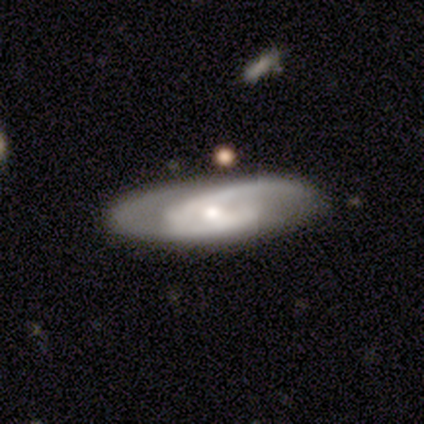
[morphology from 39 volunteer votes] smooth_or_featured: featured or disk (p=0.90) [alt: smooth p=0.08]
disk_edge_on: no (p=0.94) [alt: yes p=0.06]
bar: weak (p=0.52) [alt: no p=0.45]
has_spiral_arms: yes (p=0.97) [alt: no p=0.03]
spiral_winding: medium (p=0.59) [alt: tight p=0.28]
spiral_arm_count: 2 (p=0.81) [alt: 1 p=0.09]
bulge_size: small (p=0.58) [alt: moderate p=0.39]
merging: none (p=0.79) [alt: minor disturbance p=0.13]